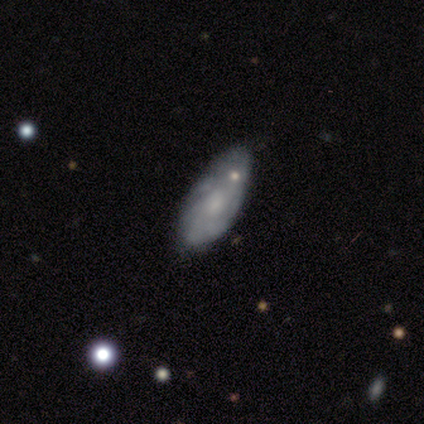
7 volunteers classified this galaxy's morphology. Overall: featured or disk (71%). Edge-on disk: no (100%). Bar: no (60%; weak 40%). Spiral arms: yes (80%). Spiral arm count: 2 (25%, tied with 3, more than 4 and can't tell). Spiral winding: medium (50%; tight 25%). Bulge size: moderate (100%). Merging: minor disturbance (57%; none 43%).